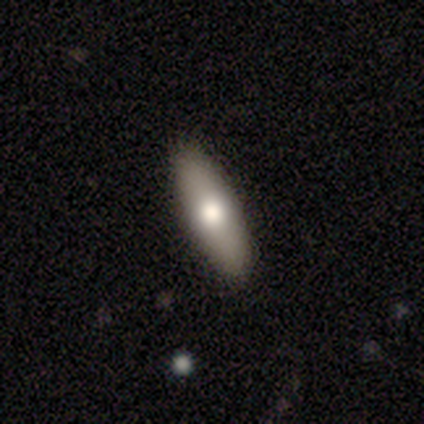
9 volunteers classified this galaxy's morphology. smooth_or_featured: smooth (p=0.78) [alt: featured or disk p=0.22]
how_rounded: cigar-shaped (p=0.71) [alt: in between p=0.29]
merging: none (p=0.78) [alt: minor disturbance p=0.22]